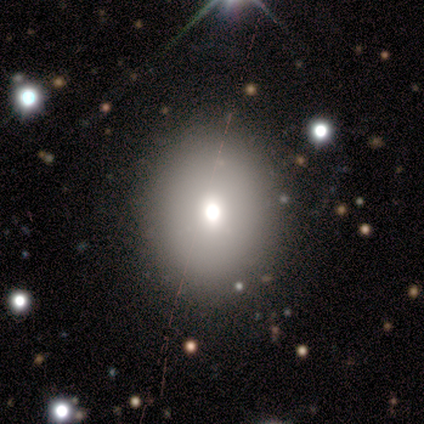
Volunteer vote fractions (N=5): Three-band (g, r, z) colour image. It shows a smooth galaxy with no disk features (60%) that is round (67%). Merging: none (100%).